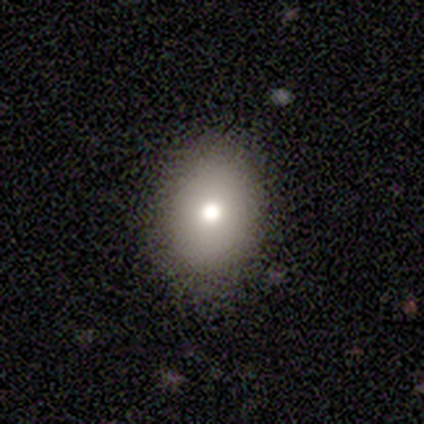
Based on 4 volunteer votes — This is clearly a smooth galaxy (100%). How rounded: possibly round (50%, tied with in between). Merging: clearly none (100%).